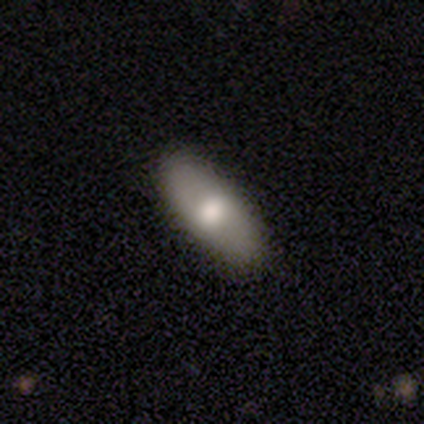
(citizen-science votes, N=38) This appears to be a smooth galaxy with no disk features (58%) that is in between round and cigar-shaped (91%). Merging: none (64%).